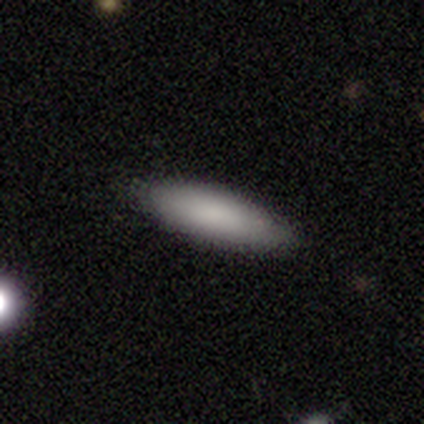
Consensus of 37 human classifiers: A smooth galaxy with no disk features (86%) that is in between round and cigar-shaped (50%, tied with cigar-shaped). Merging: none (82%).